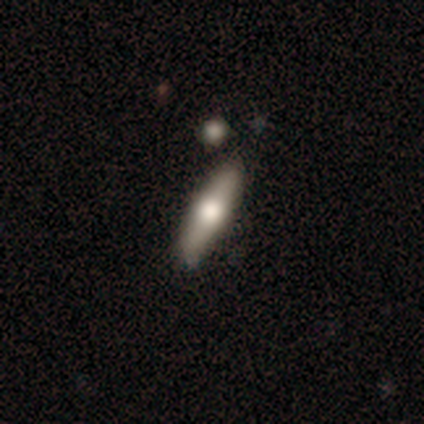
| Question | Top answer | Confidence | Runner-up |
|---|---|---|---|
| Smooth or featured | smooth | 50% | tied: featured or disk (50%) |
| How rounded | cigar-shaped | 58% | in between (42%) |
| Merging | none | 79% | minor disturbance (5%) |